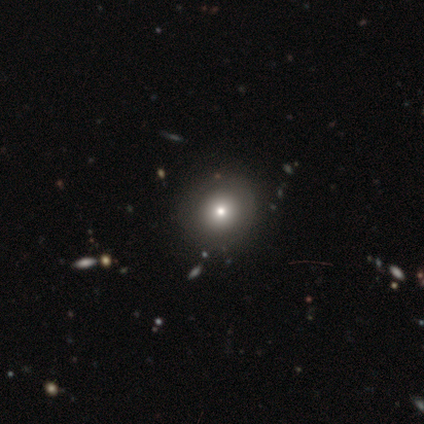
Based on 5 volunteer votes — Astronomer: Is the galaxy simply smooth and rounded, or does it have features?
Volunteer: smooth — 80%.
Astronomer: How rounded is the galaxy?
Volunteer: round — 100%.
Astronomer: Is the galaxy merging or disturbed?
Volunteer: none — 75%.